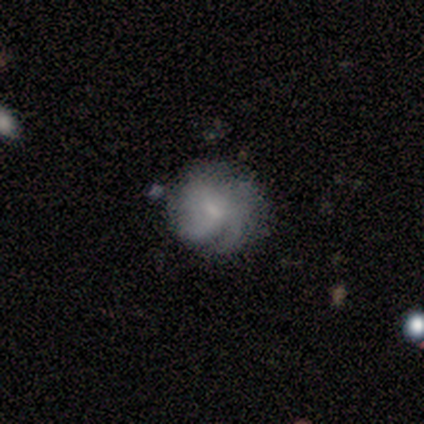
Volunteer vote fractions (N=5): Smooth or featured? 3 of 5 (60%) said smooth. How rounded? 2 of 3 (67%) said in between. Merging? 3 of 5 (60%) said none.